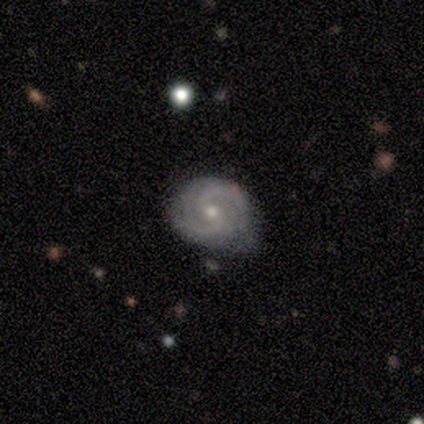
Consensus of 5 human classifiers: This is clearly a featured or disk galaxy (100%). It is clearly not viewed edge-on (100%). Bar: likely weak (60%). Spiral arm pattern: clearly yes (100%). Spiral arm count: clearly 2 (100%). Spiral winding: likely medium (60%). Central bulge: likely small (60%). Merging: clearly none (80%).